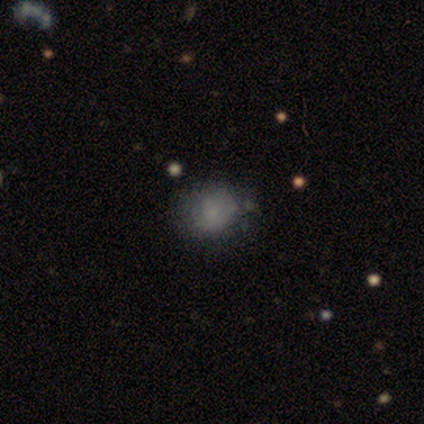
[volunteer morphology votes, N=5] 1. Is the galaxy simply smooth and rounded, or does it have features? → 80% smooth, 20% featured or disk, 0% star or artifact.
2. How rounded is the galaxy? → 50% round (tied), 50% in between (tied), 0% cigar-shaped.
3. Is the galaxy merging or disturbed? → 80% none, 20% minor disturbance, 0% major disturbance, 0% merger.